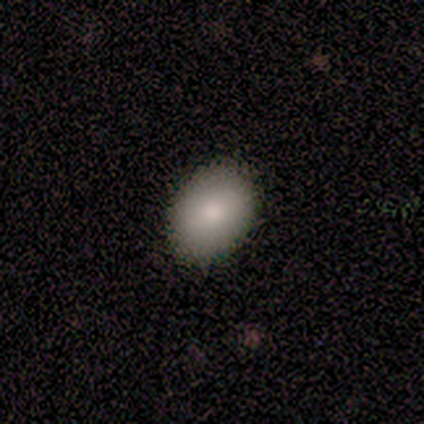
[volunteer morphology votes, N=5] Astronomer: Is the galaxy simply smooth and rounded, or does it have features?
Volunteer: smooth — 80%.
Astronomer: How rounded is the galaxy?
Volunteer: round — 50%, tied with in between at 50%.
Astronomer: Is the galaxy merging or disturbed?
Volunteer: none — 80%.